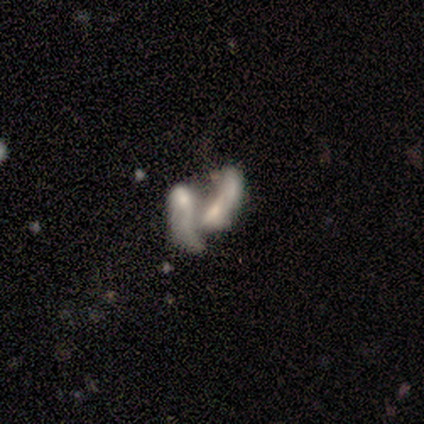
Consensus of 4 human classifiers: Smooth or featured: smooth — 100%
How rounded: in between — 100%
Merging: merger — 100%